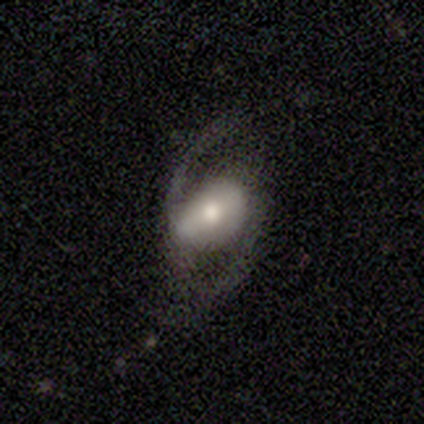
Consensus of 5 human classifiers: This appears to be a featured or disk galaxy (80%) with a weak bar (75%), 2 (100%) medium (75%) spiral arms (100%) and a moderate central bulge (75%). Merging: none (40%, tied with minor disturbance).